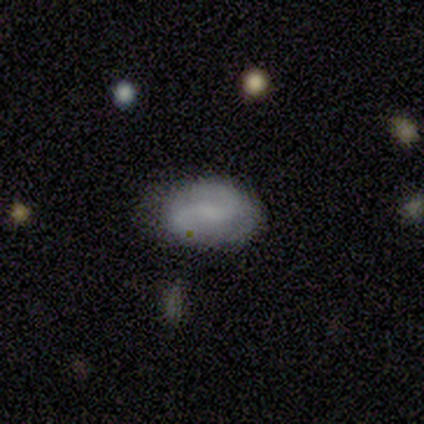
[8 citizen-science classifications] Smooth or featured: smooth — 75% (featured or disk — 12%)
How rounded: in between — 100%
Merging: none — 86% (minor disturbance — 14%)